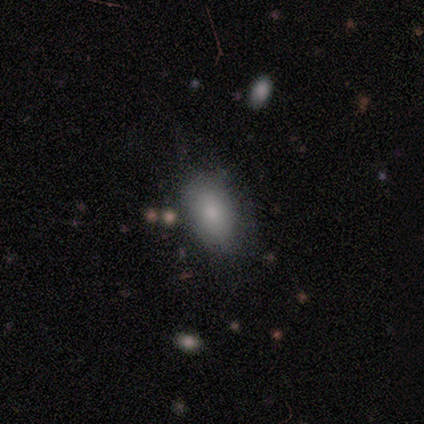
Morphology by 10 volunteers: smooth_or_featured: smooth (p=0.80) [alt: featured or disk p=0.20]
how_rounded: in between (p=1.00)
merging: minor disturbance (p=0.50) [alt: none p=0.40]